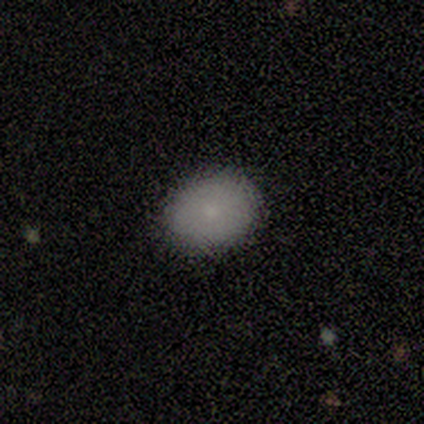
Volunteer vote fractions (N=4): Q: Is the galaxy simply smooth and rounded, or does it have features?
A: smooth — 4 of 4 (100%).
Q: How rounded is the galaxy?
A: round — 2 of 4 (50%, tied with in between).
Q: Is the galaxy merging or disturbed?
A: none — 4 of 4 (100%).